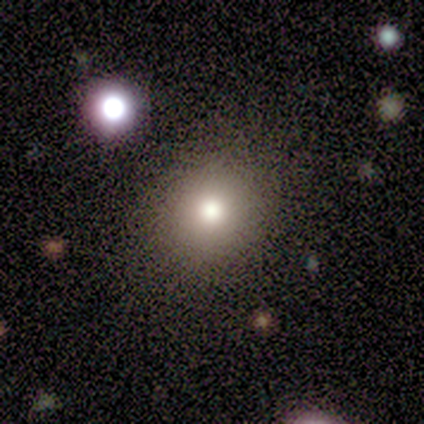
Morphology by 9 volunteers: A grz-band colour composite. It shows a smooth galaxy with no disk features (67%) that is round (83%). Merging: none (100%).